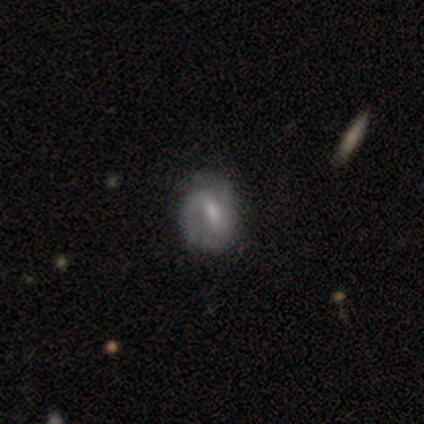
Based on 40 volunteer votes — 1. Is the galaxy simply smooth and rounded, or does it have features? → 65% featured or disk, 25% smooth, 10% star or artifact.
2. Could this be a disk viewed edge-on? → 92% no, 8% yes.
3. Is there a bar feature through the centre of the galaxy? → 67% weak, 21% strong, 12% no.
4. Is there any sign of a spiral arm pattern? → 79% yes, 21% no.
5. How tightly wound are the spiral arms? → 53% tight, 32% medium, 16% loose.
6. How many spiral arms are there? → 68% 2, 26% 1, 5% can't tell, 0% 3, 0% 4, 0% more than 4.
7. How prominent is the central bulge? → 46% small, 42% moderate, 8% none, 4% large, 0% dominant.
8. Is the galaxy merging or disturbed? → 58% none, 36% minor disturbance, 6% major disturbance, 0% merger.